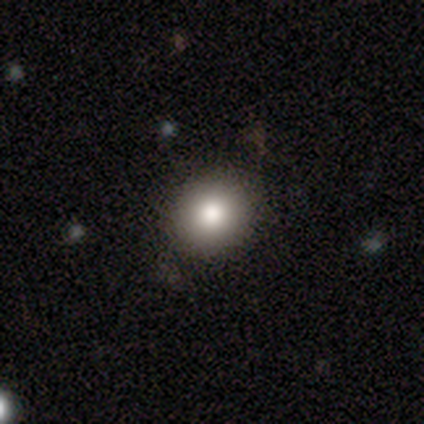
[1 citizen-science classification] This appears to be a star or artifact, not a galaxy (100%).